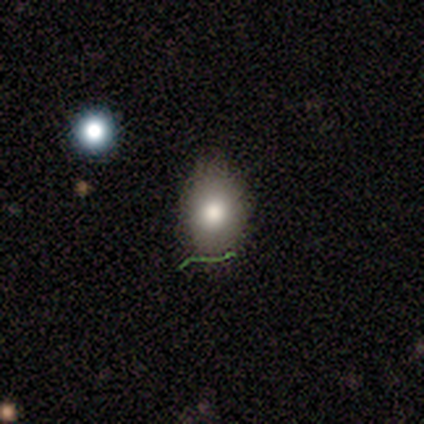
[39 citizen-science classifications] This is possibly a smooth galaxy (56%). How rounded: likely in between (73%). Merging: clearly none (87%).